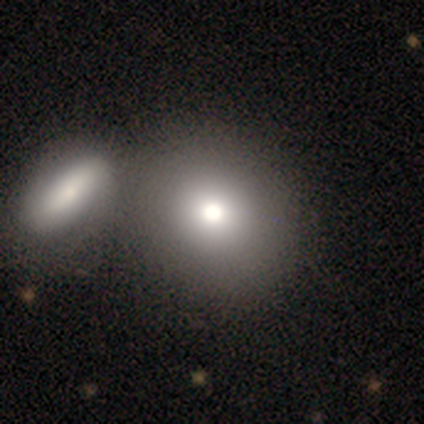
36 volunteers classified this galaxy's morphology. Smooth or featured: smooth — 78% (featured or disk — 19%)
How rounded: round — 68% (in between — 32%)
Merging: merger — 49% (none — 23%)